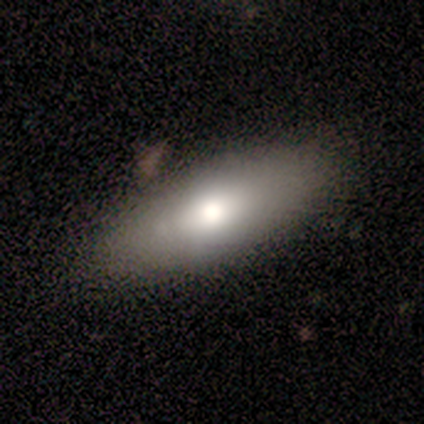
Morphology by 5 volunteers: smooth 80%, featured or disk 20%, star or artifact 0%. Down the decision tree: how rounded — in between (100%); merging — none (80%).